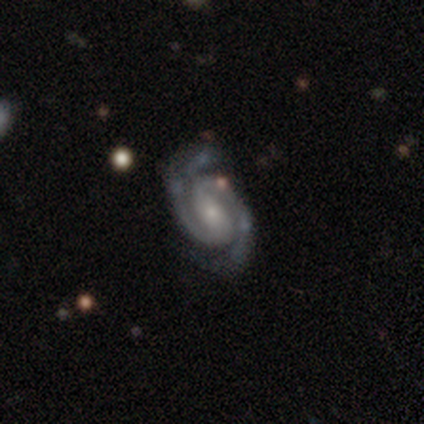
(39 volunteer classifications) featured or disk 92%, star or artifact 8%, smooth 0%. Down the decision tree: edge-on disk — no (92%); bar — weak (58%); spiral arms — yes (100%); spiral arm count — 2 (91%); spiral winding — tight (52%); bulge size — small (58%); merging — none (72%).